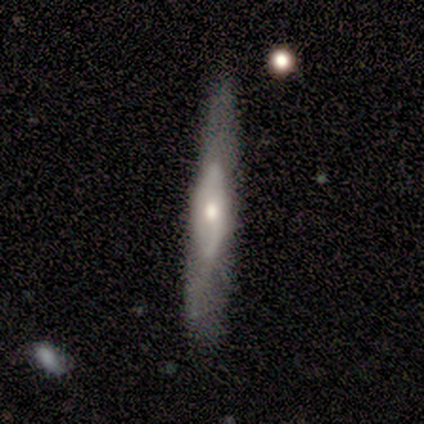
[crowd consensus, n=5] Smooth or featured?
  - featured or disk: 60% *
  - smooth: 40%
  - star or artifact: 0%
Edge-on disk?
  - yes: 67% *
  - no: 33%
Edge-on bulge?
  - none: 50% * (tied)
  - rounded: 50% * (tied)
  - boxy: 0%
Merging?
  - none: 40% * (tied)
  - minor disturbance: 40% * (tied)
  - major disturbance: 20%
  - merger: 0%